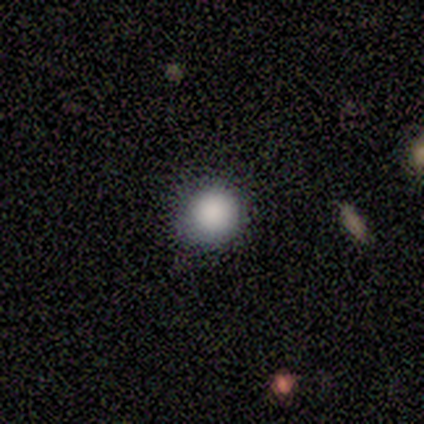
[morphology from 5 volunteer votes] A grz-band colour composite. It shows a smooth galaxy with no disk features (80%) that is round (75%). Merging: none (40%, tied with major disturbance).